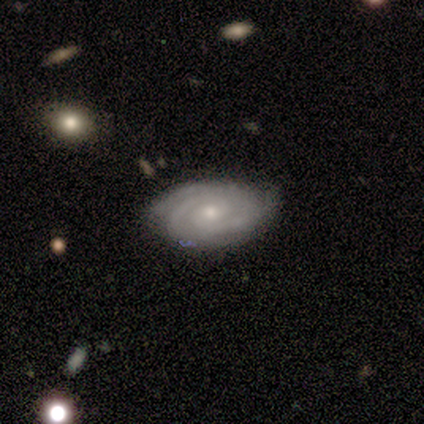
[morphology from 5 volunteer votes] type=featured or disk (80%); edge-on=yes (50%, tied with no); edge-on bulge=none (50%, tied with rounded); merging=none (60%).